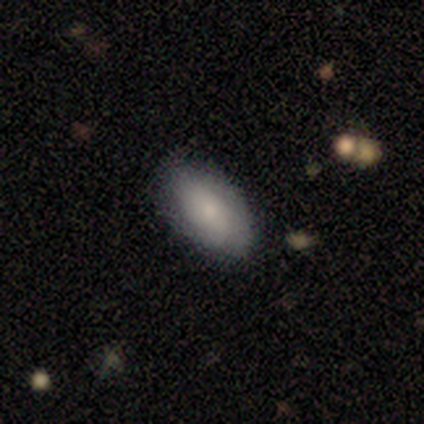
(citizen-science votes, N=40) Smooth or featured? smooth (80%)
How rounded? in between (91%)
Merging? none (73%)